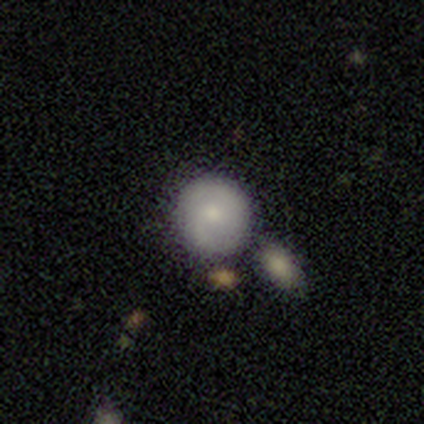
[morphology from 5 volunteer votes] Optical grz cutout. It shows a smooth galaxy with no disk features (80%) that is round (100%). Merging: none (50%).